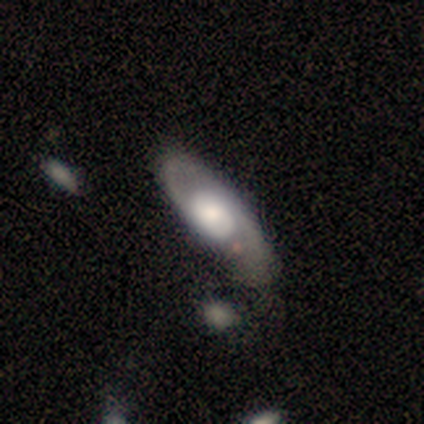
Smooth or featured: featured or disk — 71% (smooth — 24%)
Edge-on disk: no — 93% (yes — 7%)
Bar: no — 72% (weak — 20%)
Spiral arms: yes — 84% (no — 16%)
Spiral winding: loose — 48% (medium — 33%)
Spiral arm count: 2 — 86% (can't tell — 10%)
Bulge size: moderate — 40% (large — 20%)
Merging: none — 58% (minor disturbance — 17%)